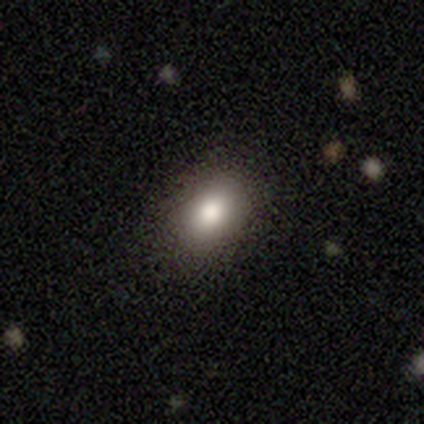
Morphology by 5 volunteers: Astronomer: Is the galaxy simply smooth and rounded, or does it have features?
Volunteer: smooth — 100%.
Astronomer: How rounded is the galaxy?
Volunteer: in between — 100%.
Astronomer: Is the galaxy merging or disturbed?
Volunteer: none — 100%.